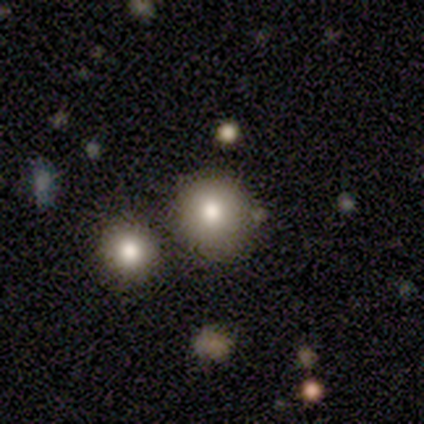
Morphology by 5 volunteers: A smooth galaxy with no disk features (80%) that is round (100%). Merging: none (80%).